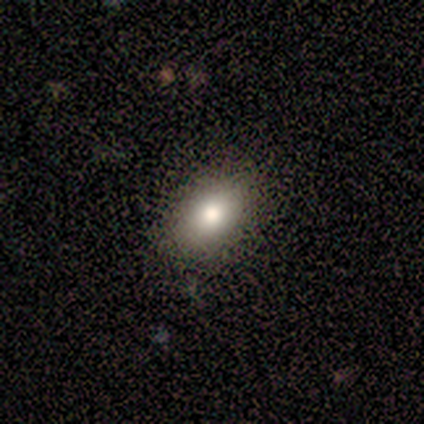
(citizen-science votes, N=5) Smooth or featured?
  - smooth: 80% *
  - featured or disk: 20%
  - star or artifact: 0%
How rounded?
  - in between: 100% *
  - round: 0%
  - cigar-shaped: 0%
Merging?
  - none: 80% *
  - major disturbance: 20%
  - minor disturbance: 0%
  - merger: 0%